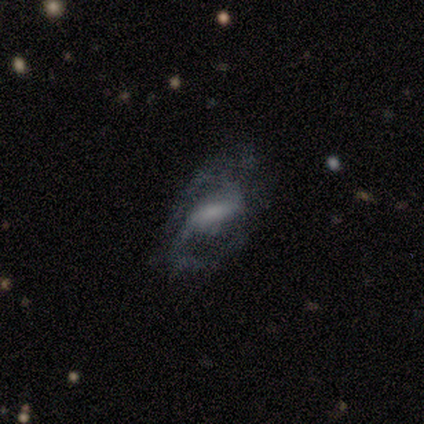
Smooth or featured: featured or disk — 80% (star or artifact — 20%)
Edge-on disk: no — 100%
Bar: weak — 75% (strong — 25%)
Spiral arms: yes — 100%
Spiral winding: loose — 50% (tight — 25%)
Spiral arm count: 2 — 100%
Bulge size: moderate — 75% (none — 25%)
Merging: none — 75% (minor disturbance — 25%)